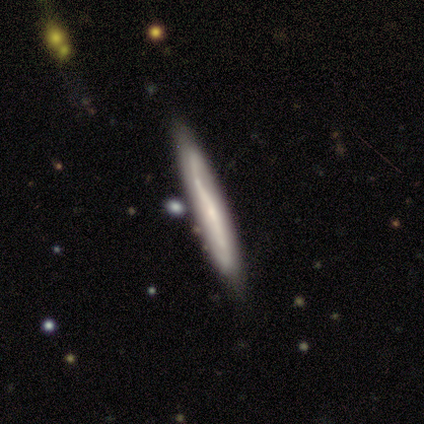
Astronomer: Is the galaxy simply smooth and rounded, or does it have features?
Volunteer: smooth — 50%, tied with featured or disk at 50%.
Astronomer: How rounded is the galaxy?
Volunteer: cigar-shaped — 100%.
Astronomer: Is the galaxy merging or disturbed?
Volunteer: none — 100%.